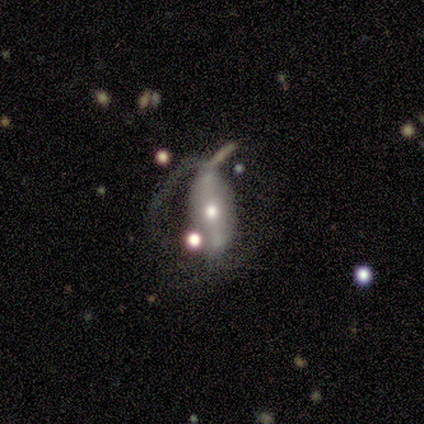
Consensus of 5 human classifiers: A smooth galaxy with no disk features (60%) that is in between round and cigar-shaped (100%). Merging: minor disturbance (40%, tied with major disturbance).